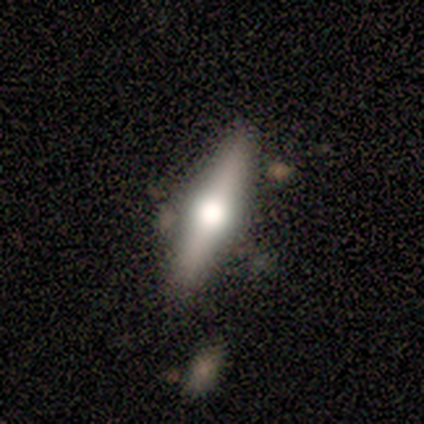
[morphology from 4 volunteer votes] Smooth or featured? featured or disk (100%)
Edge-on disk? yes (100%)
Edge-on bulge? rounded (100%)
Merging? none (100%)